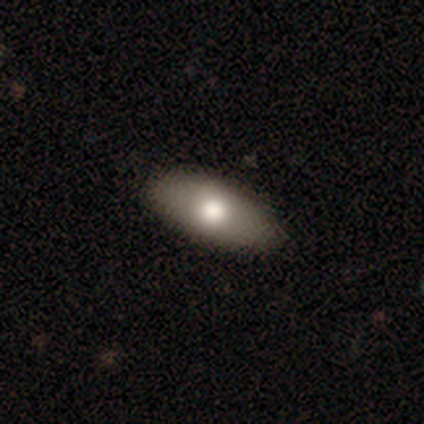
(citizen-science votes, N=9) Smooth or featured?
  - smooth: 78% *
  - featured or disk: 22%
  - star or artifact: 0%
How rounded?
  - in between: 100% *
  - round: 0%
  - cigar-shaped: 0%
Merging?
  - none: 78% *
  - minor disturbance: 22%
  - major disturbance: 0%
  - merger: 0%